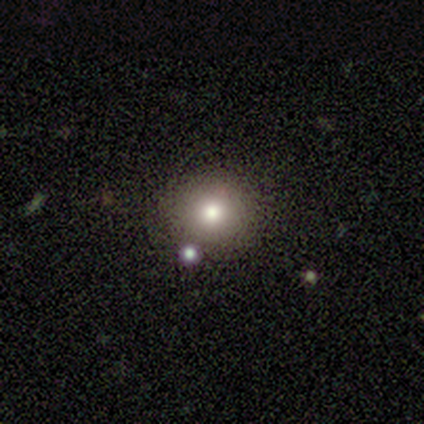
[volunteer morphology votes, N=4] This is possibly a smooth galaxy (50%). How rounded: clearly round (100%). Merging: clearly none (100%).